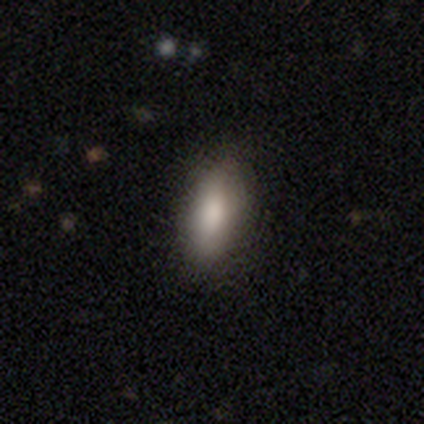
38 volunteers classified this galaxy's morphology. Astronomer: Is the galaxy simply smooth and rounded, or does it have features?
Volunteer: smooth — 79%.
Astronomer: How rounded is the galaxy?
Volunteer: in between — 77%.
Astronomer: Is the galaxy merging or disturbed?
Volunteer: none — 79%.